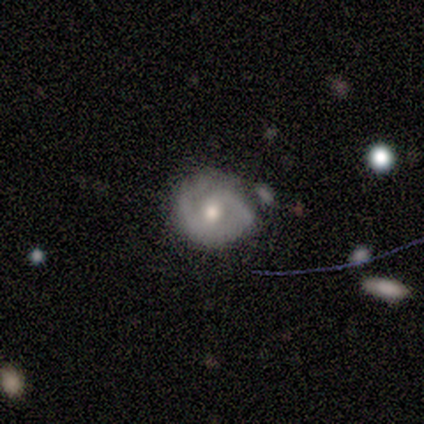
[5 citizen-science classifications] A featured or disk galaxy (60%) with no bar (67%), 2 (50%, tied with can't tell) tight (50%, tied with medium) spiral arms (67%) and a moderate central bulge (100%). Merging: none (60%).